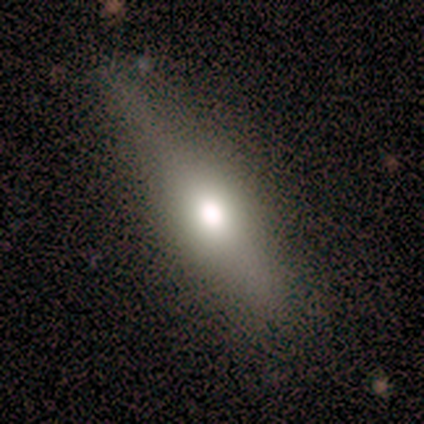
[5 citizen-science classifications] Morphology: type=smooth (40%, tied with featured or disk); roundness=cigar-shaped (100%); merging=major disturbance (50%).